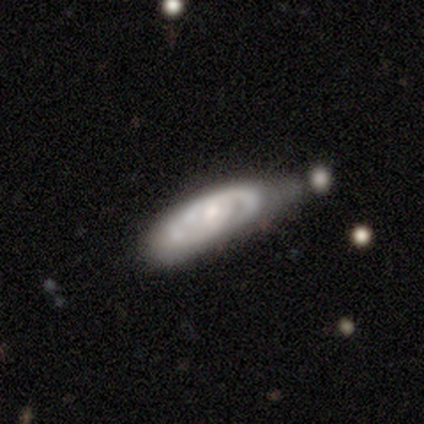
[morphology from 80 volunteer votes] smooth_or_featured: featured or disk (p=0.84) [alt: smooth p=0.12]
disk_edge_on: no (p=0.93) [alt: yes p=0.07]
bar: no (p=0.68) [alt: weak p=0.27]
has_spiral_arms: yes (p=0.82) [alt: no p=0.18]
spiral_winding: tight (p=0.61) [alt: medium p=0.27]
spiral_arm_count: 2 (p=0.47) [alt: can't tell p=0.35]
bulge_size: small (p=0.56) [alt: moderate p=0.34]
merging: minor disturbance (p=0.23) [alt: none p=0.21]